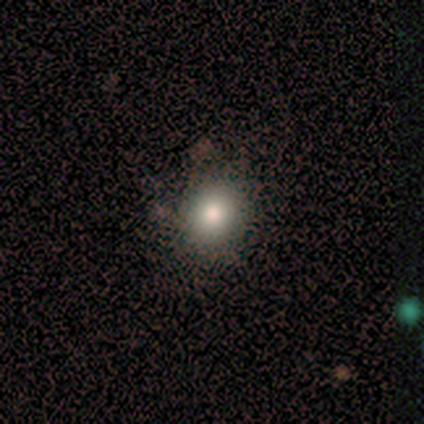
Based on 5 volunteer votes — Smooth or featured? 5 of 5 (100%) said smooth. How rounded? 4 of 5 (80%) said round. Merging? 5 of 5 (100%) said none.